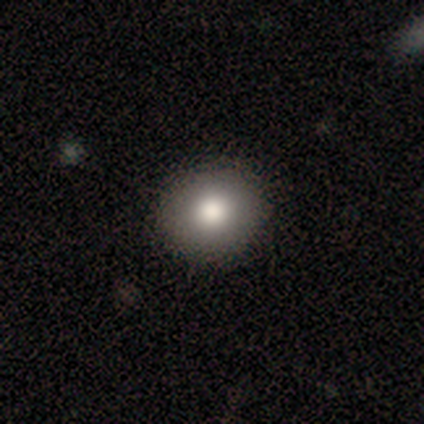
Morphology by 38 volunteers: Smooth or featured?
  - smooth: 87% *
  - featured or disk: 8%
  - star or artifact: 5%
How rounded?
  - round: 88% *
  - in between: 12%
  - cigar-shaped: 0%
Merging?
  - none: 94% *
  - minor disturbance: 6%
  - major disturbance: 0%
  - merger: 0%